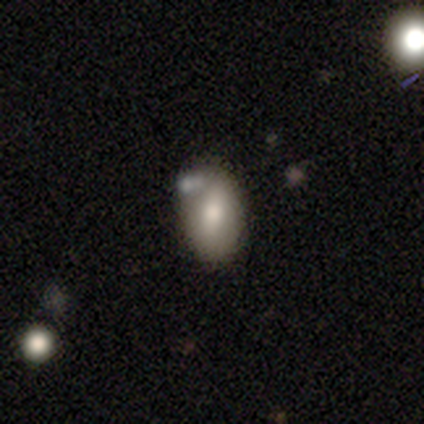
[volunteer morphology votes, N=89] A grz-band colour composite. It shows a smooth galaxy with no disk features (69%) that is in between round and cigar-shaped (89%). Merging: none (66%).